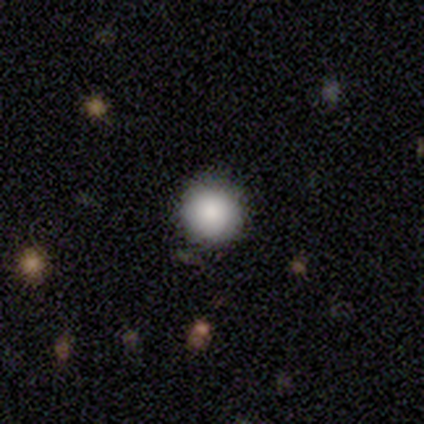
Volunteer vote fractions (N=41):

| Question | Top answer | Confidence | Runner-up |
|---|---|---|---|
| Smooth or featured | smooth | 85% | star or artifact (12%) |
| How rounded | round | 94% | in between (6%) |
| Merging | none | 89% | minor disturbance (8%) |